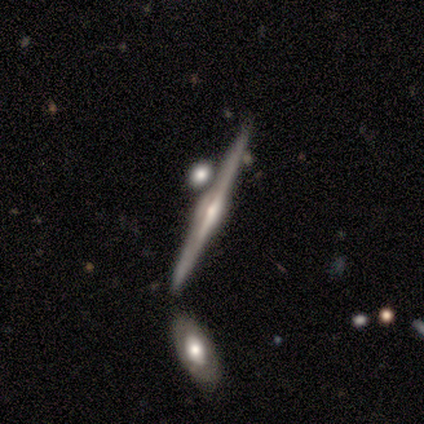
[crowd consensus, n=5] smooth_or_featured: featured or disk (p=0.60) [alt: star or artifact p=0.40]
disk_edge_on: yes (p=1.00)
edge_on_bulge: rounded (p=1.00)
merging: none (p=0.67) [alt: merger p=0.33]